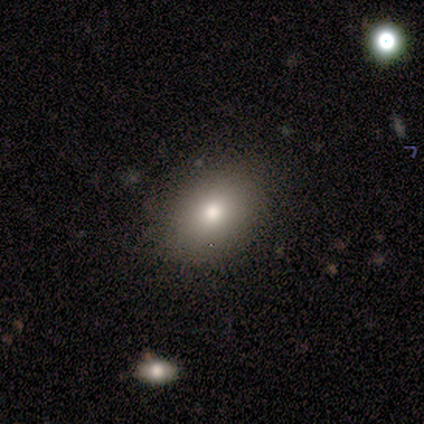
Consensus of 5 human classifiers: Smooth or featured? smooth (60%)
How rounded? round (100%)
Merging? none (100%)